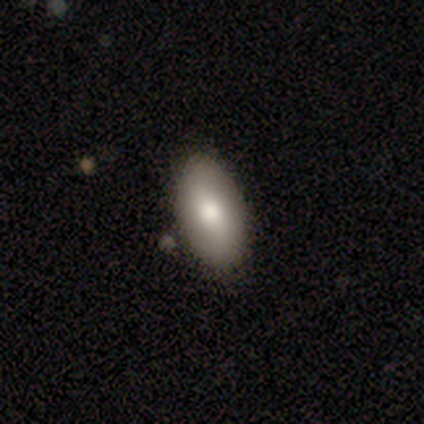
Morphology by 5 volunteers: Overall: smooth (100%). How rounded: in between (100%). Merging: none (80%).